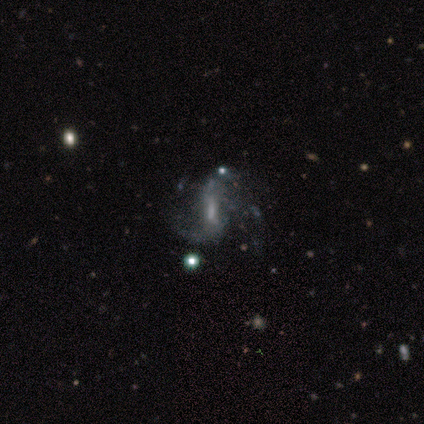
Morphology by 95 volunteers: Overall: featured or disk (77%). Edge-on disk: no (99%). Bar: weak (57%; strong 24%). Spiral arms: yes (86%). Spiral arm count: 2 (61%). Spiral winding: loose (65%; medium 34%). Bulge size: small (42%; none 31%). Merging: major disturbance (35%; none 34%).